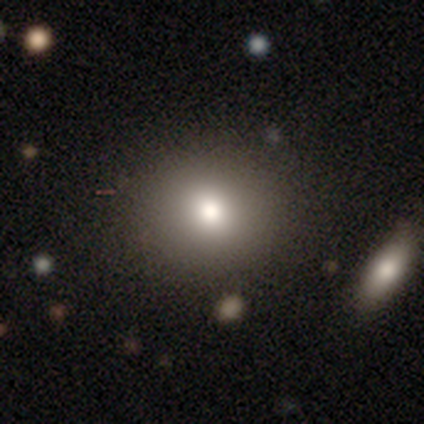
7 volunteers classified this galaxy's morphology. smooth_or_featured: smooth (p=0.86) [alt: star or artifact p=0.14]
how_rounded: round (p=1.00)
merging: none (p=1.00)